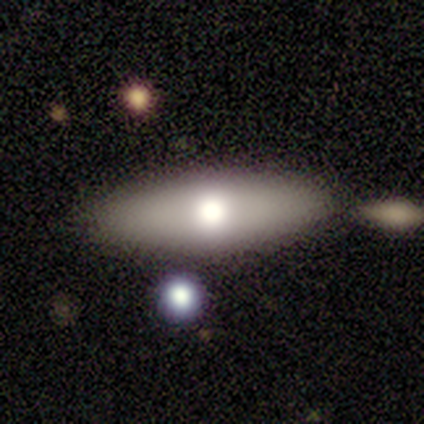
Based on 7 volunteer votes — smooth-or-featured: smooth: 86% | featured or disk: 14% | star or artifact: 0%
  how-rounded: in between: 67% | cigar-shaped: 33% | round: 0%
  merging: none: 86% | merger: 14% | minor disturbance: 0% | major disturbance: 0%